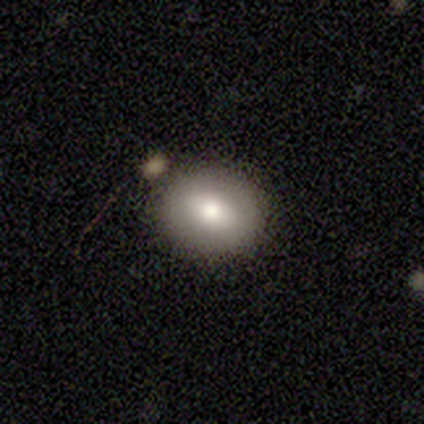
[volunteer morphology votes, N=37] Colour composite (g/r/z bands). It shows a smooth galaxy with no disk features (54%) that is round (55%). Merging: none (83%).